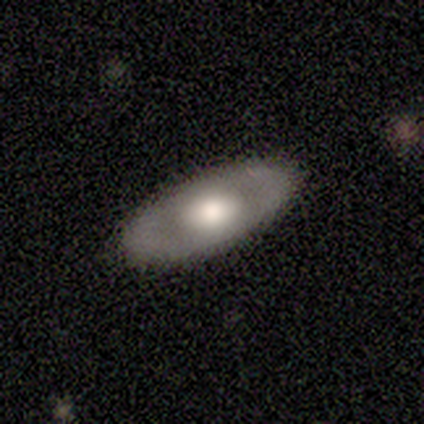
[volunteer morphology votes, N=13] Smooth or featured: smooth — 46% (tied with featured or disk — 46%)
How rounded: in between — 100%
Merging: none — 75% (minor disturbance — 25%)